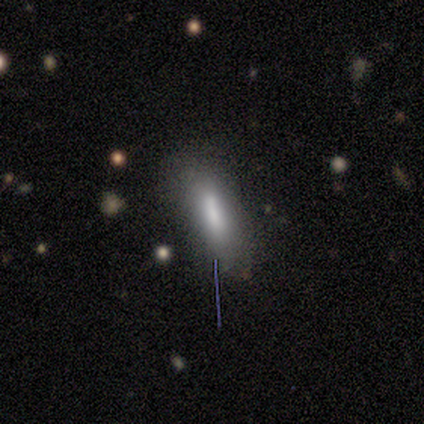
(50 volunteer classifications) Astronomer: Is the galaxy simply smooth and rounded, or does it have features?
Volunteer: smooth — 74%.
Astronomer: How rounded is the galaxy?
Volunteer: in between — 70%.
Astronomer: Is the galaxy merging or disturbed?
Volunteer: none — 67%.